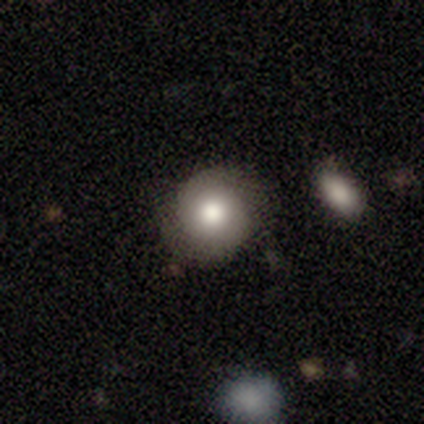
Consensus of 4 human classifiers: This is clearly a smooth galaxy (100%). How rounded: clearly round (100%). Merging: clearly none (100%).